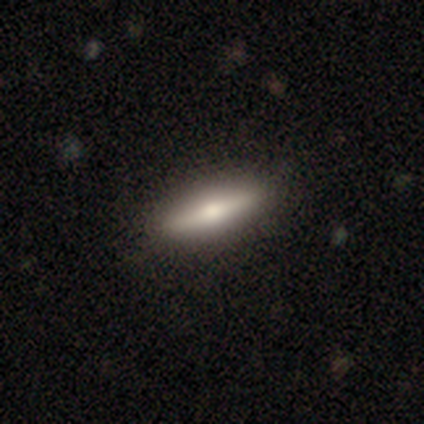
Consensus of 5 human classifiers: Overall: smooth (80%). How rounded: in between (50%; round 25%). Merging: none (60%; minor disturbance 40%).